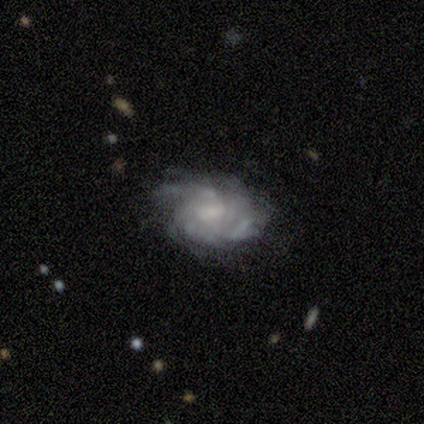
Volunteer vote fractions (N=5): A featured or disk galaxy (100%) with a strong bar (40%, tied with weak), tight (80%) spiral arms (100%) and a moderate central bulge (40%, tied with small). Merging: none (80%).